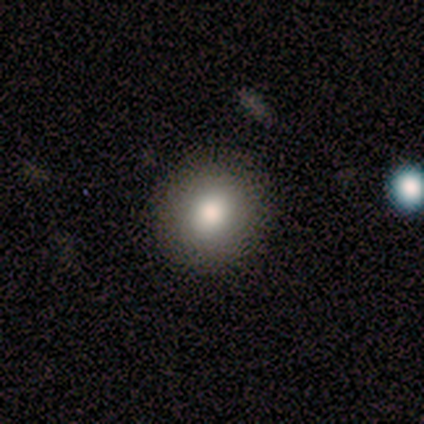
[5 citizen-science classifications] A smooth galaxy with no disk features (100%) that is round (80%). Merging: none (80%).